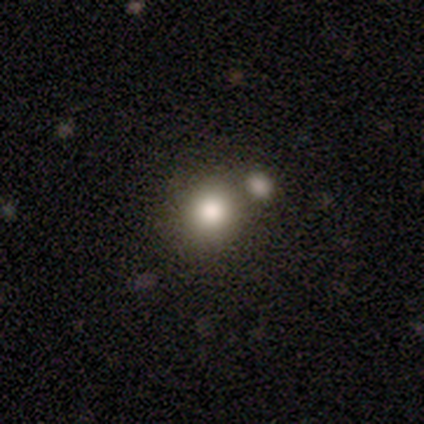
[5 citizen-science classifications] This is clearly a smooth galaxy (100%). How rounded: clearly round (80%). Merging: marginally none (40%, tied with merger).